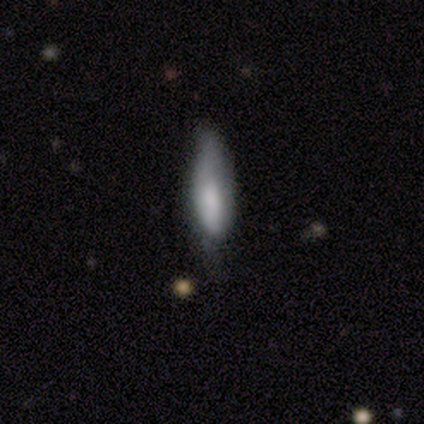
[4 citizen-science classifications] Volunteers were most divided on "smooth or featured" (2-way tie): smooth: 50%, featured or disk: 50%, star or artifact: 0%. More confident: how rounded — in between (100%); merging — none (75%).